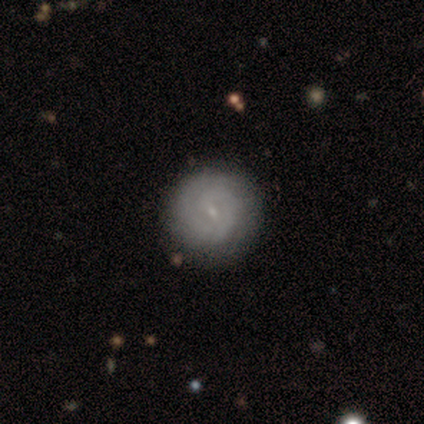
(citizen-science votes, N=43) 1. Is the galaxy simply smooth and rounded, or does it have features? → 67% featured or disk, 28% smooth, 5% star or artifact.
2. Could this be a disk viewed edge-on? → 97% no, 3% yes.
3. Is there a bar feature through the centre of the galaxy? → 54% weak, 36% no, 11% strong.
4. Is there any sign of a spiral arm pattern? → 86% yes, 14% no.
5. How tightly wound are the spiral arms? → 79% tight, 12% medium, 8% loose.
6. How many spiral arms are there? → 46% 2, 33% 1, 12% can't tell, 4% 3, 4% 4, 0% more than 4.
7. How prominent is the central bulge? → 86% small, 11% none, 4% moderate, 0% dominant, 0% large.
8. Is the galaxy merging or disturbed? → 80% none, 17% minor disturbance, 2% merger, 0% major disturbance.